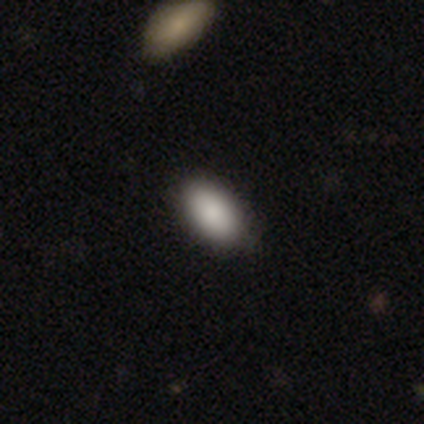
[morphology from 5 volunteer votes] Smooth or featured?
  - smooth: 80% *
  - star or artifact: 20%
  - featured or disk: 0%
How rounded?
  - in between: 100% *
  - round: 0%
  - cigar-shaped: 0%
Merging?
  - none: 100% *
  - minor disturbance: 0%
  - major disturbance: 0%
  - merger: 0%